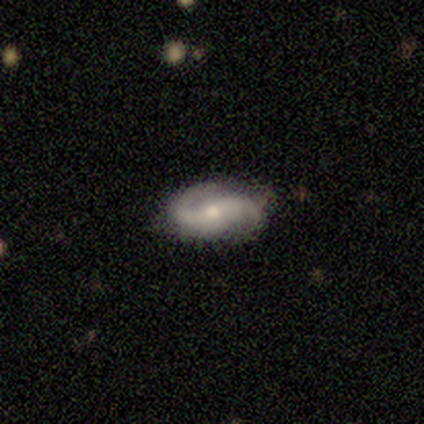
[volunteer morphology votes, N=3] smooth-or-featured: featured or disk: 100% | smooth: 0% | star or artifact: 0%
  disk-edge-on: no: 100% | yes: 0%
    bar: no: 67% | weak: 33% | strong: 0%
    has-spiral-arms: yes: 100% | no: 0%
      spiral-winding: tight: 33% (tied) | medium: 33% (tied) | loose: 33% (tied)
      spiral-arm-count: 2: 100% | 1: 0% | 3: 0% | 4: 0% | more than 4: 0% | can't tell: 0%
    bulge-size: moderate: 67% | small: 33% | dominant: 0% | large: 0% | none: 0%
  merging: none: 67% | minor disturbance: 33% | major disturbance: 0% | merger: 0%